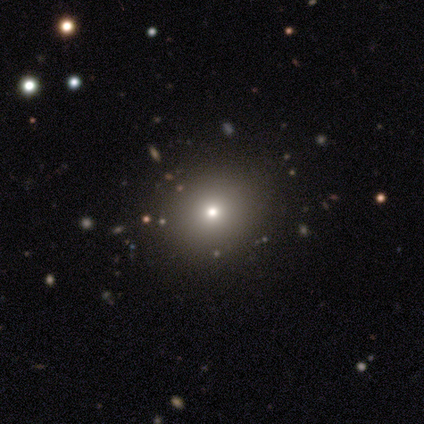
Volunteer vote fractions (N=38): Overall: smooth (66%; star or artifact 29%). How rounded: round (88%). Merging: none (93%).